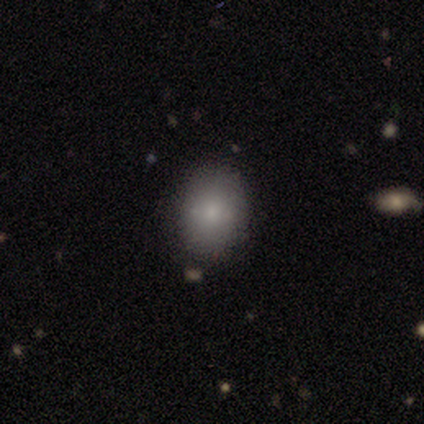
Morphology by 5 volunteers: Volunteers were most divided on "how rounded": in between: 80%, round: 20%, cigar-shaped: 0%. More confident: smooth or featured — smooth (100%); merging — none (80%).